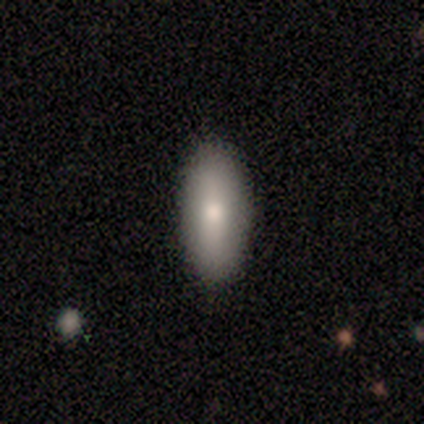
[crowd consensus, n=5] smooth-or-featured: smooth: 100% | featured or disk: 0% | star or artifact: 0%
  how-rounded: in between: 80% | cigar-shaped: 20% | round: 0%
  merging: none: 100% | minor disturbance: 0% | major disturbance: 0% | merger: 0%